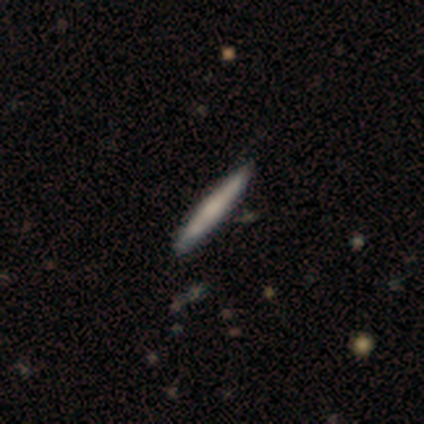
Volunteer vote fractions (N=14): Smooth or featured?
  - smooth: 43% * (tied)
  - featured or disk: 43% * (tied)
  - star or artifact: 14%
How rounded?
  - cigar-shaped: 100% *
  - round: 0%
  - in between: 0%
Merging?
  - none: 92% *
  - minor disturbance: 8%
  - major disturbance: 0%
  - merger: 0%